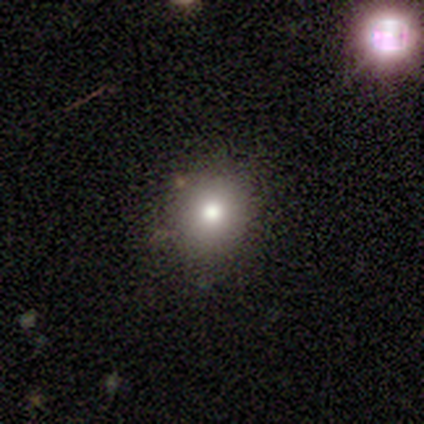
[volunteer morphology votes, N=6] Overall: smooth (50%, tied with star or artifact). How rounded: round (67%; in between 33%). Merging: none (67%; minor disturbance 33%).